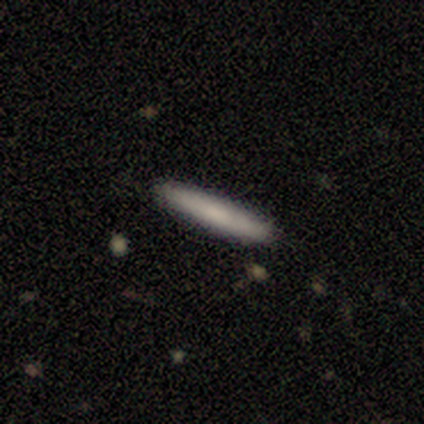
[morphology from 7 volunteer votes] smooth-or-featured: smooth: 86% | star or artifact: 14% | featured or disk: 0%
  how-rounded: cigar-shaped: 100% | round: 0% | in between: 0%
  merging: none: 100% | minor disturbance: 0% | major disturbance: 0% | merger: 0%